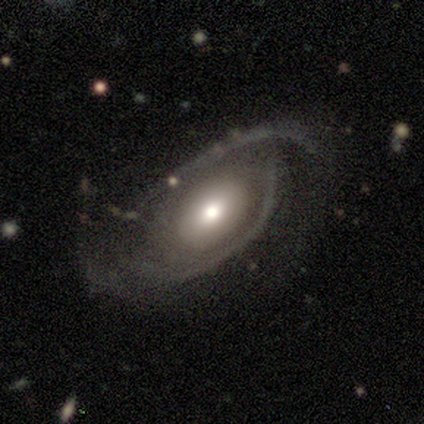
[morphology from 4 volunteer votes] smooth 50% (tied), featured or disk 50% (tied), star or artifact 0%. Down the decision tree: how rounded — in between (100%); merging — major disturbance (75%).